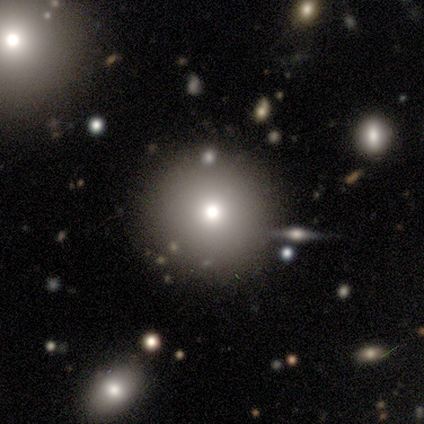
This is clearly a smooth galaxy (80%). How rounded: clearly round (100%). Merging: clearly none (80%).